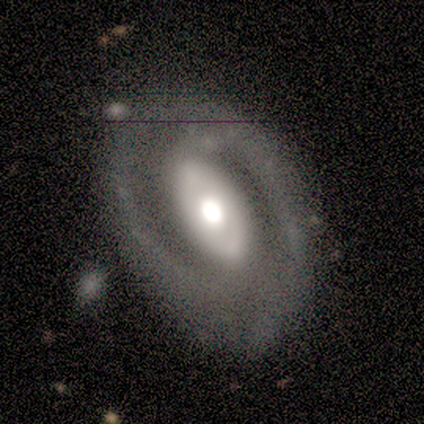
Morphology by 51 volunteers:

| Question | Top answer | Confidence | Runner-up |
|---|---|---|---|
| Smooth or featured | featured or disk | 88% | star or artifact (8%) |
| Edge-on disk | no | 98% | yes (2%) |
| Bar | no | 55% | strong (30%) |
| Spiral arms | yes | 89% | no (11%) |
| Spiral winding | medium | 56% | tight (31%) |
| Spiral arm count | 2 | 90% | 3 (5%) |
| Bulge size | large | 50% | moderate (39%) |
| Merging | none | 72% | minor disturbance (19%) |